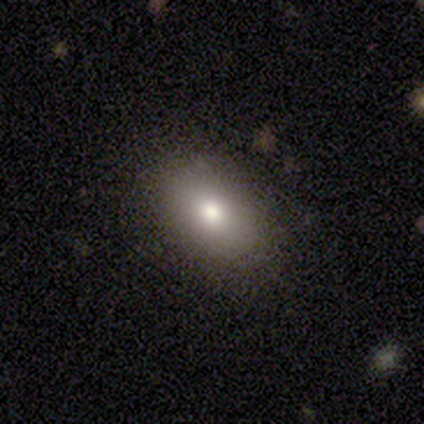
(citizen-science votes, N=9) Q: Smooth or featured?
A: smooth (67%); runner-up: featured or disk (22%)
Q: How rounded?
A: in between (83%); runner-up: round (17%)
Q: Merging?
A: none (100%)